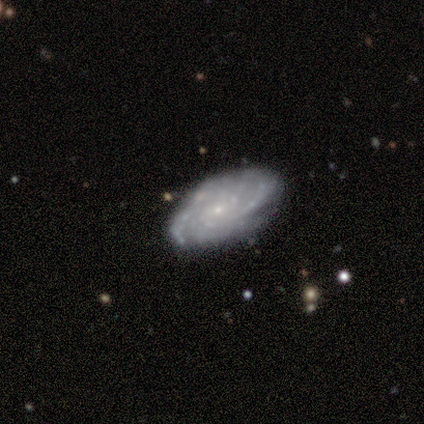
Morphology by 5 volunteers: featured or disk 100%, smooth 0%, star or artifact 0%. Down the decision tree: edge-on disk — no (80%); bar — no (100%); spiral arms — yes (75%); spiral arm count — can't tell (67%); spiral winding — tight (67%); bulge size — moderate (50%, tied with small); merging — none (100%).